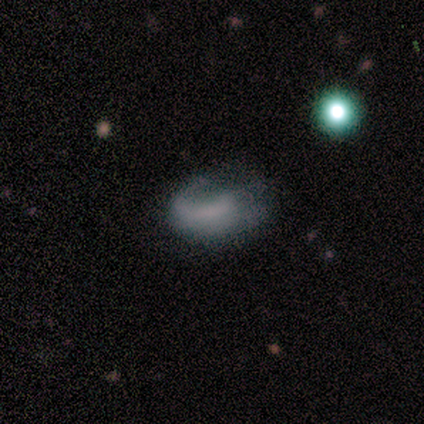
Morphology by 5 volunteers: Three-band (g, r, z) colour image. It shows a featured or disk galaxy (60%) with a weak bar (67%), 1 (50%, tied with 2) tight (50%, tied with medium) spiral arms (67%) and no central bulge (100%). Merging: major disturbance (50%).